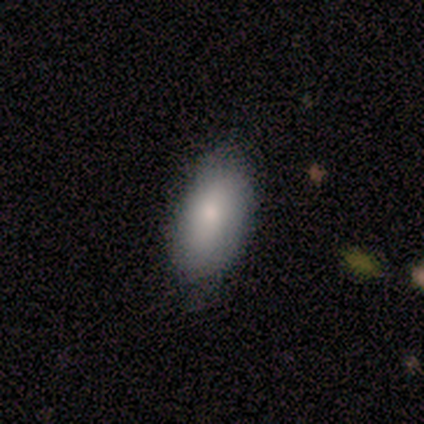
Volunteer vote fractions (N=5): A featured or disk galaxy (60%) with no bar (100%), no spiral arms (100%) and a small central bulge (67%).

Vote fractions:
- Smooth or featured? featured or disk: 60% / smooth: 40% / star or artifact: 0%
- Edge-on disk? no: 100% / yes: 0%
- Bar? no: 100% / strong: 0% / weak: 0%
- Spiral arms? no: 100% / yes: 0%
- Bulge size? small: 67% / moderate: 33% / dominant: 0% / large: 0% / none: 0%
- Merging? none: 60% / major disturbance: 40% / minor disturbance: 0% / merger: 0%